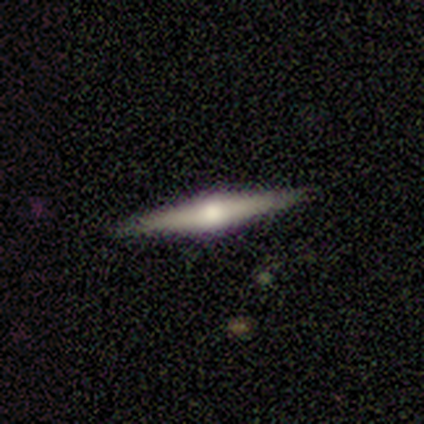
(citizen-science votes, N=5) Smooth or featured? featured or disk (80%)
Edge-on disk? yes (100%)
Edge-on bulge? rounded (100%)
Merging? none (75%)